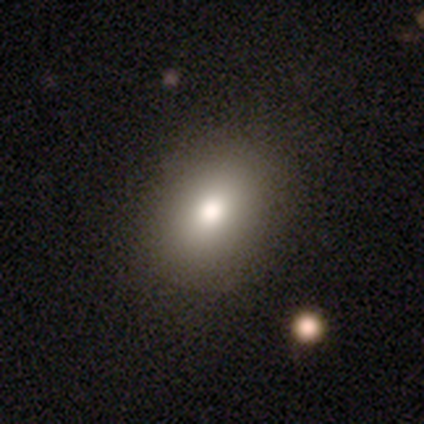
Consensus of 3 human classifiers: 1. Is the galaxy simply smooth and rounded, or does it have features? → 100% smooth, 0% featured or disk, 0% star or artifact.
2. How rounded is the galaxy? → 67% in between, 33% round, 0% cigar-shaped.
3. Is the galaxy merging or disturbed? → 100% none, 0% minor disturbance, 0% major disturbance, 0% merger.